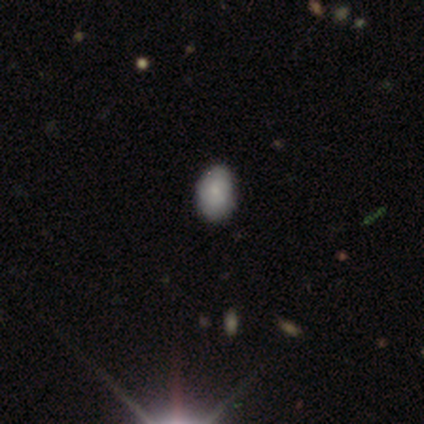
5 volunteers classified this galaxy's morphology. smooth-or-featured: smooth: 80% | featured or disk: 20% | star or artifact: 0%
  how-rounded: in between: 100% | round: 0% | cigar-shaped: 0%
  merging: none: 80% | minor disturbance: 20% | major disturbance: 0% | merger: 0%